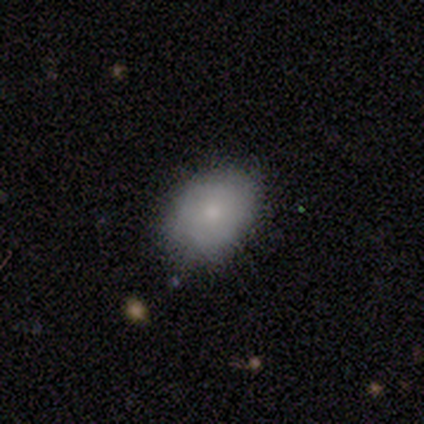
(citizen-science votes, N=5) Smooth or featured? 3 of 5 (60%) said smooth. How rounded? 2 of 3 (67%) said round. Merging? 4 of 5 (80%) said none.